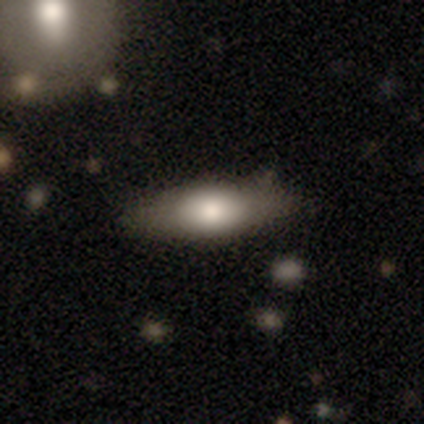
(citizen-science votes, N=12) A smooth galaxy with no disk features (50%, tied with featured or disk) that is in between round and cigar-shaped (83%).

Vote fractions:
- Smooth or featured? smooth: 50% (tied) / featured or disk: 50% (tied) / star or artifact: 0%
- How rounded? in between: 83% / cigar-shaped: 17% / round: 0%
- Merging? none: 75% / minor disturbance: 25% / major disturbance: 0% / merger: 0%